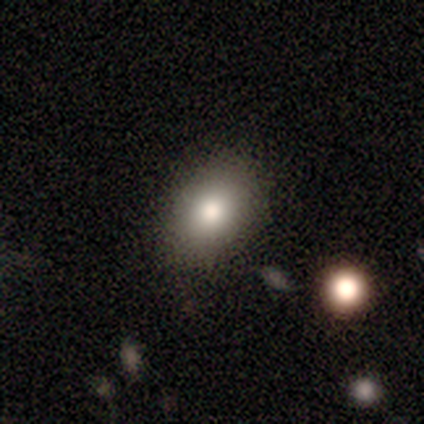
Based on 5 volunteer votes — Smooth or featured?
  - smooth: 60% *
  - featured or disk: 40%
  - star or artifact: 0%
How rounded?
  - in between: 100% *
  - round: 0%
  - cigar-shaped: 0%
Merging?
  - none: 100% *
  - minor disturbance: 0%
  - major disturbance: 0%
  - merger: 0%